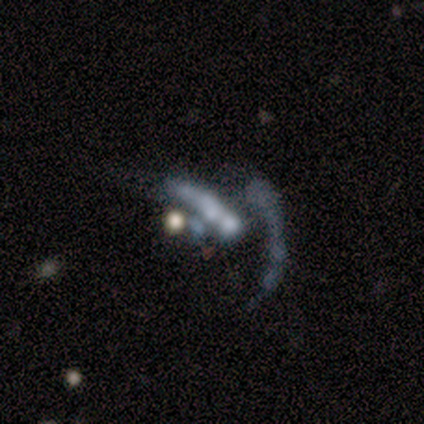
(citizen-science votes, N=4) Smooth or featured: featured or disk — 100%
Edge-on disk: no — 75% (yes — 25%)
Bar: no — 100%
Spiral arms: no — 100%
Bulge size: large — 33% (tied with small — 33%; none — 33%)
Merging: major disturbance — 75% (none — 25%)